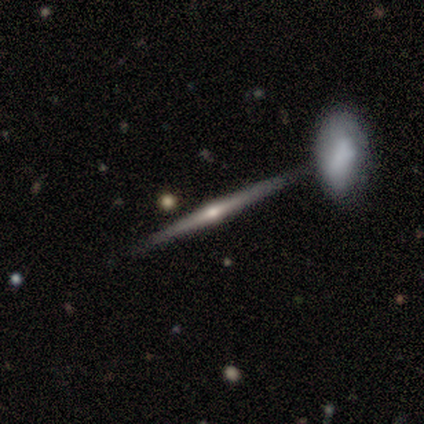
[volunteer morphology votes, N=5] type=featured or disk (60%); edge-on=yes (100%); edge-on bulge=rounded (67%); merging=none (75%).